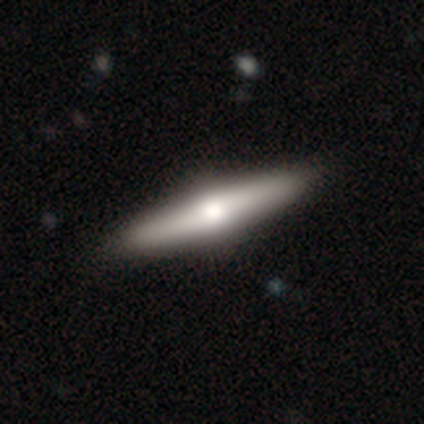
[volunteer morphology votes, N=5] Q: Smooth or featured?
A: featured or disk (60%); runner-up: smooth (40%)
Q: Edge-on disk?
A: yes (100%)
Q: Edge-on bulge?
A: rounded (100%)
Q: Merging?
A: none (100%)